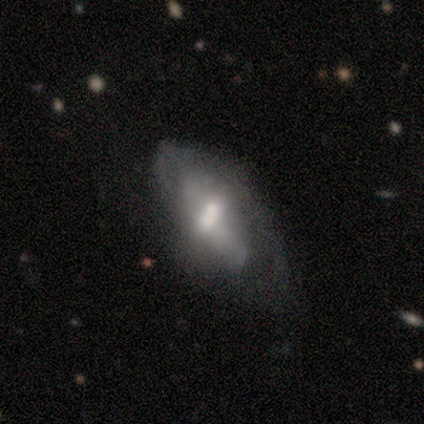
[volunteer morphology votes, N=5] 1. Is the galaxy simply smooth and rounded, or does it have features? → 60% featured or disk, 40% smooth, 0% star or artifact.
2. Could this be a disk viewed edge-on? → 100% no, 0% yes.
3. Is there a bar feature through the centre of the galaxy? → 33% strong (tied), 33% weak (tied), 33% no (tied).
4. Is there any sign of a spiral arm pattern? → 100% no, 0% yes.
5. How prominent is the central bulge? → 67% moderate, 33% none, 0% dominant, 0% large, 0% small.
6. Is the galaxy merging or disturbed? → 40% minor disturbance (tied), 40% major disturbance (tied), 20% none, 0% merger.